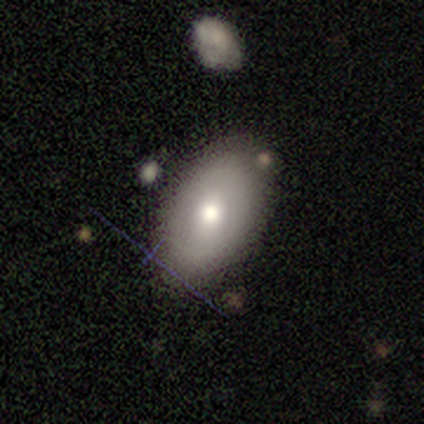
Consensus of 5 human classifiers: Q: Smooth or featured?
A: smooth (100%)
Q: How rounded?
A: in between (80%); runner-up: round (20%)
Q: Merging?
A: none (80%); runner-up: minor disturbance (20%)